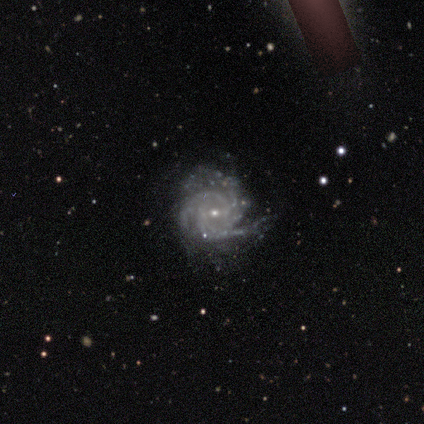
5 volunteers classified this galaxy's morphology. A featured or disk galaxy (100%) with no bar (60%), 4 (60%) tight (60%) spiral arms (100%) and a small central bulge (100%).

Vote fractions:
- Smooth or featured? featured or disk: 100% / smooth: 0% / star or artifact: 0%
- Edge-on disk? no: 100% / yes: 0%
- Bar? no: 60% / weak: 40% / strong: 0%
- Spiral arms? yes: 100% / no: 0%
- Spiral winding? tight: 60% / medium: 40% / loose: 0%
- Spiral arm count? 4: 60% / 3: 40% / 1: 0% / 2: 0% / more than 4: 0% / can't tell: 0%
- Bulge size? small: 100% / dominant: 0% / large: 0% / moderate: 0% / none: 0%
- Merging? none: 100% / minor disturbance: 0% / major disturbance: 0% / merger: 0%